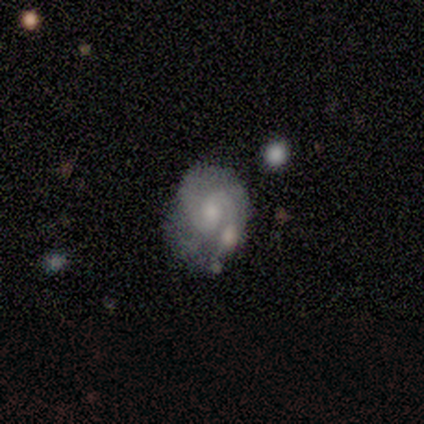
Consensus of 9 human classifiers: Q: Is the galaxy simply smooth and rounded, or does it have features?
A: featured or disk — 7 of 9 (78%).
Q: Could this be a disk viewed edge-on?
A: no — 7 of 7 (100%).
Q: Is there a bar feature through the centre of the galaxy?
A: no — 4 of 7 (57%).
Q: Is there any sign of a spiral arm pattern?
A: yes — 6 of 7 (86%).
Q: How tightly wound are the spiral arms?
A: tight — 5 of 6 (83%).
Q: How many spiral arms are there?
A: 2 — 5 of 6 (83%).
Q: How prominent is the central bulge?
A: small — 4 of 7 (57%).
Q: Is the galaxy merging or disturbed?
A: none — 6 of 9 (67%).